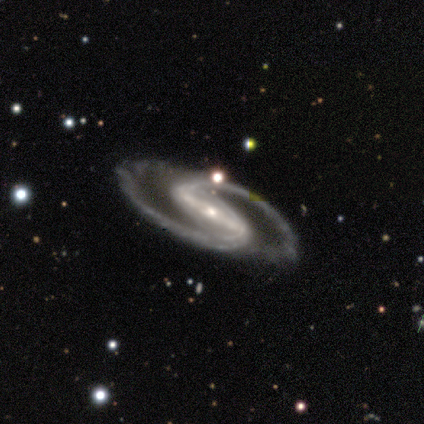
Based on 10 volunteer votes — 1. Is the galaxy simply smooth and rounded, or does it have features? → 90% featured or disk, 10% smooth, 0% star or artifact.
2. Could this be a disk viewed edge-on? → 100% no, 0% yes.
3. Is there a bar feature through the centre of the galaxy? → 89% strong, 11% weak, 0% no.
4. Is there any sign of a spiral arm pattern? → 89% yes, 11% no.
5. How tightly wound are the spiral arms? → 75% medium, 12% tight, 12% loose.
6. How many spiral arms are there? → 88% 2, 12% can't tell, 0% 1, 0% 3, 0% 4, 0% more than 4.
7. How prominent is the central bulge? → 78% small, 22% moderate, 0% dominant, 0% large, 0% none.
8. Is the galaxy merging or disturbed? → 60% none, 20% minor disturbance, 20% major disturbance, 0% merger.